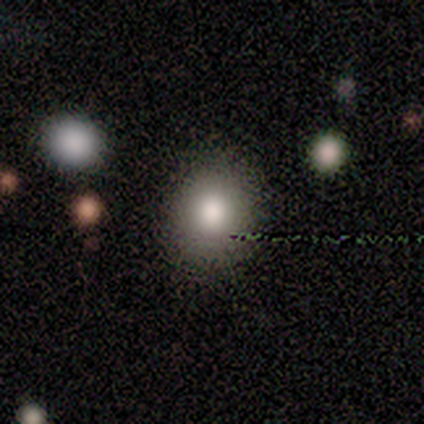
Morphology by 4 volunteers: Smooth or featured: smooth — 75% (star or artifact — 25%)
How rounded: round — 67% (in between — 33%)
Merging: none — 67% (minor disturbance — 33%)